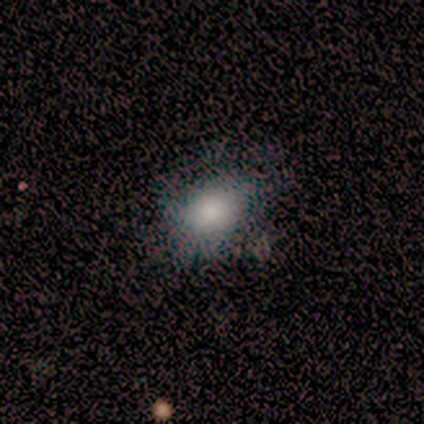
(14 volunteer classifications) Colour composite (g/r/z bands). It shows a smooth galaxy with no disk features (93%) that is in between round and cigar-shaped (62%). Merging: none (69%).